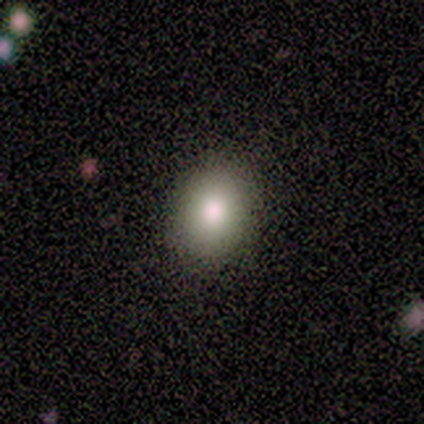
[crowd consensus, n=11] A smooth galaxy with no disk features (73%) that is in between round and cigar-shaped (62%). Merging: none (91%).